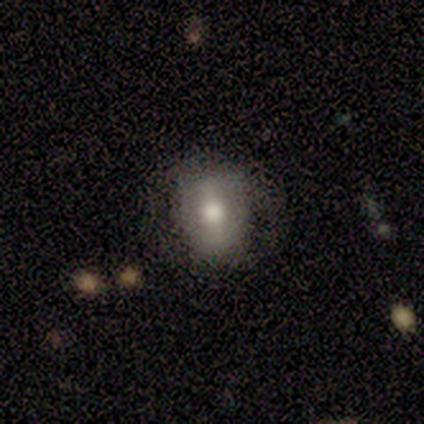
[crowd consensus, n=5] Volunteers were most divided on "how rounded": in between: 75%, round: 25%, cigar-shaped: 0%. More confident: merging — none (100%); smooth or featured — smooth (80%).